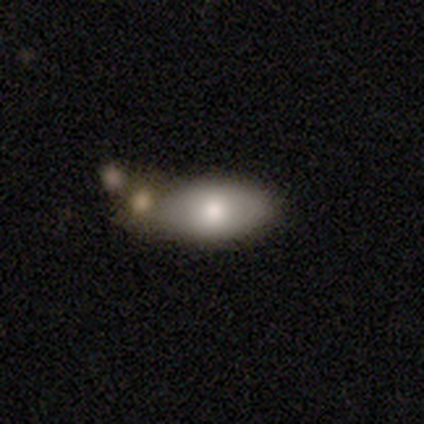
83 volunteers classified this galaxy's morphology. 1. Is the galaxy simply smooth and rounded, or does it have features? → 86% smooth, 13% featured or disk, 1% star or artifact.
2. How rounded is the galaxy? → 89% in between, 7% cigar-shaped, 4% round.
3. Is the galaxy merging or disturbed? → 54% none, 26% merger, 18% minor disturbance, 2% major disturbance.